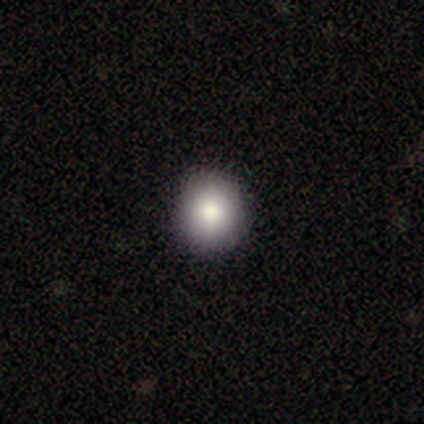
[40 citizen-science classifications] smooth-or-featured: smooth: 72% | star or artifact: 15% | featured or disk: 12%
  how-rounded: round: 100% | in between: 0% | cigar-shaped: 0%
  merging: none: 97% | minor disturbance: 3% | major disturbance: 0% | merger: 0%